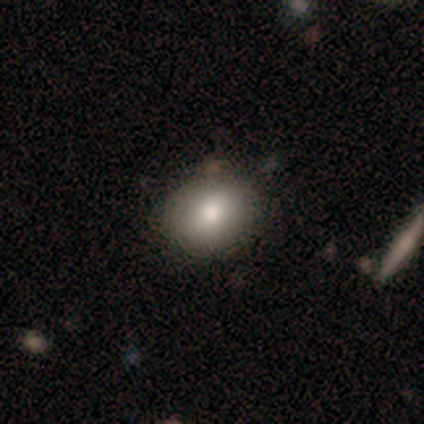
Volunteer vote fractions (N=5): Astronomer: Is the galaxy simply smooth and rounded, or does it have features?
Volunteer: smooth — 100%.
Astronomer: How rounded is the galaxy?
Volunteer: round — 60% (runner-up: in between, 40%).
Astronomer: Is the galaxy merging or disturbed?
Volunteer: none — 100%.